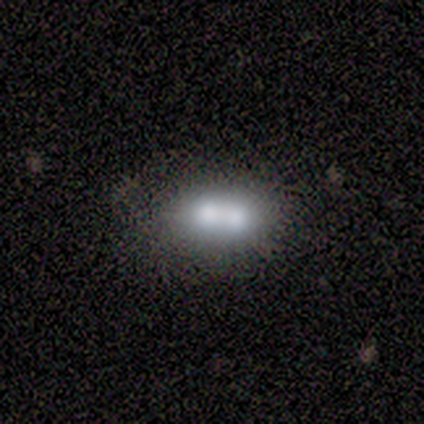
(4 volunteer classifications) Smooth or featured? smooth (75%)
How rounded? cigar-shaped (67%)
Merging? none (50%, tied with merger)